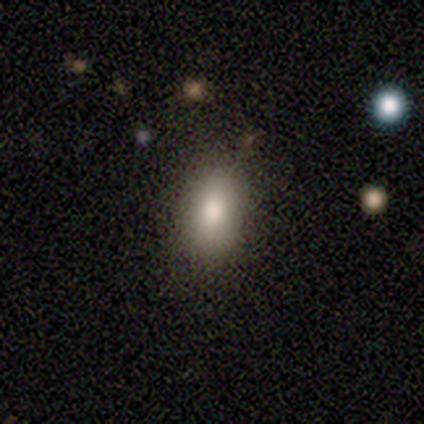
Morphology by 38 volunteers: Smooth or featured?
  - smooth: 76% *
  - star or artifact: 16%
  - featured or disk: 8%
How rounded?
  - in between: 93% *
  - round: 3%
  - cigar-shaped: 3%
Merging?
  - none: 97% *
  - major disturbance: 3%
  - minor disturbance: 0%
  - merger: 0%